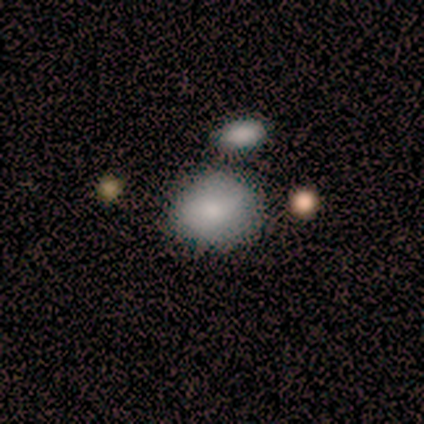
This appears to be a smooth galaxy with no disk features (100%) that is in between round and cigar-shaped (75%). Merging: none (50%).